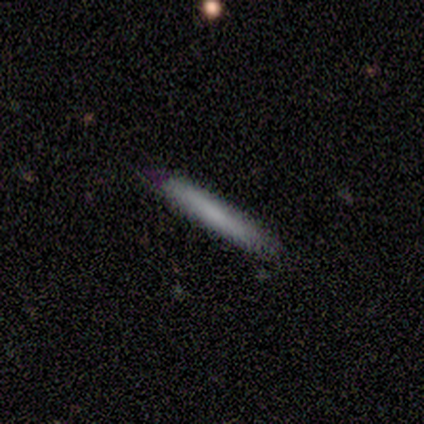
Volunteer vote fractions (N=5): Q: Smooth or featured?
A: smooth (100%)
Q: How rounded?
A: cigar-shaped (100%)
Q: Merging?
A: none (80%); runner-up: minor disturbance (20%)